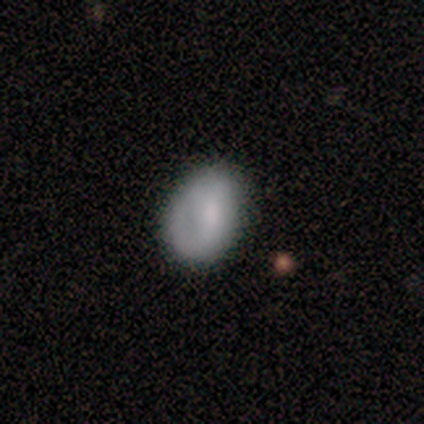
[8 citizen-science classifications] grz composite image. It shows a featured or disk galaxy (75%) with no bar (67%), no spiral arms (67%) and a small central bulge (50%). Merging: none (62%).